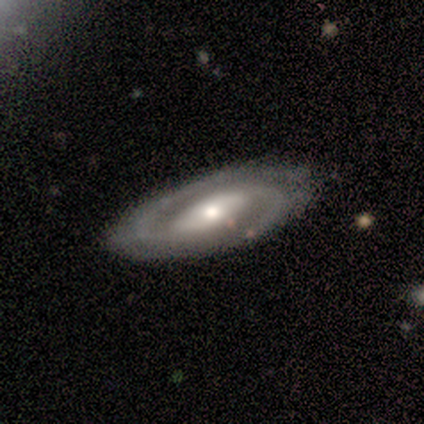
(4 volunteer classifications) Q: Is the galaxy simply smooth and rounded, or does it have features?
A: featured or disk — 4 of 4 (100%).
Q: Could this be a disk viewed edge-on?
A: no — 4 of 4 (100%).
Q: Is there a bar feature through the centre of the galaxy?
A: strong — 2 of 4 (50%).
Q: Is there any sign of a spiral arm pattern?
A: yes — 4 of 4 (100%).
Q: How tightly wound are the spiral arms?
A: loose — 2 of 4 (50%).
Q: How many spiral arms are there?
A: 2 — 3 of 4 (75%).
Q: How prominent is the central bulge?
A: large — 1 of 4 (25%, tied with moderate, small and none).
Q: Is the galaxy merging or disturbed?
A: none — 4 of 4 (100%).